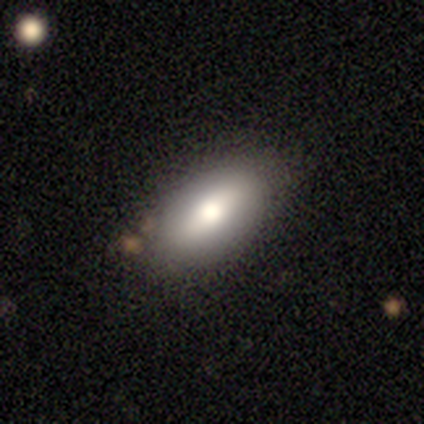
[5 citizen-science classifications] This appears to be a featured or disk galaxy (60%) with a weak bar (50%, tied with no), no spiral arms (100%) and a moderate central bulge (50%, tied with small). Merging: none (80%).